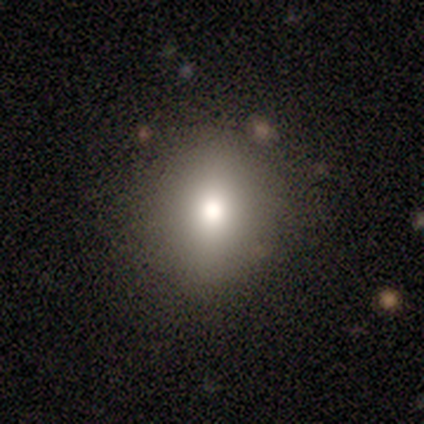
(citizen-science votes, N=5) smooth-or-featured: smooth: 60% | featured or disk: 20% | star or artifact: 20%
  how-rounded: round: 100% | in between: 0% | cigar-shaped: 0%
  merging: none: 100% | minor disturbance: 0% | major disturbance: 0% | merger: 0%